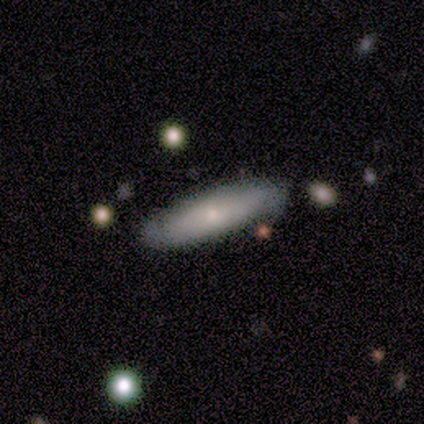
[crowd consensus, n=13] smooth-or-featured: smooth: 62% | featured or disk: 38% | star or artifact: 0%
  how-rounded: cigar-shaped: 50% | in between: 38% | round: 12%
  merging: none: 77% | merger: 15% | minor disturbance: 8% | major disturbance: 0%